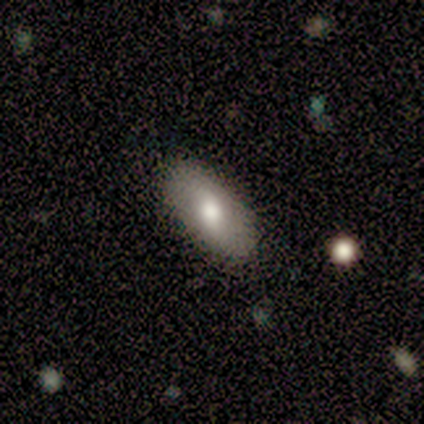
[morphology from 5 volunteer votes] Smooth or featured?
  - smooth: 80% *
  - featured or disk: 20%
  - star or artifact: 0%
How rounded?
  - in between: 100% *
  - round: 0%
  - cigar-shaped: 0%
Merging?
  - none: 100% *
  - minor disturbance: 0%
  - major disturbance: 0%
  - merger: 0%